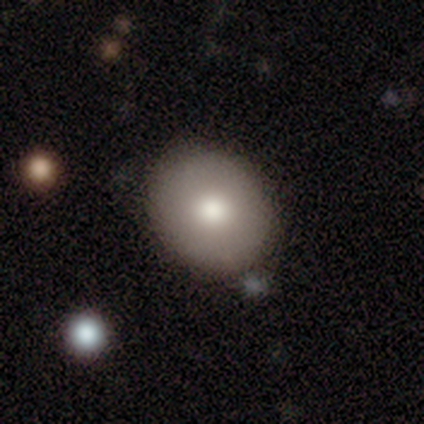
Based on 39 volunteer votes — Smooth or featured: smooth — 67% (star or artifact — 21%)
How rounded: round — 88% (in between — 12%)
Merging: none — 87% (minor disturbance — 6%)